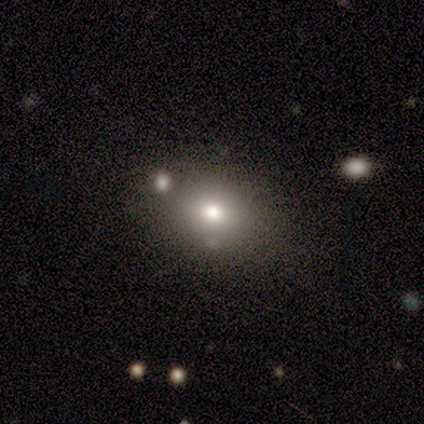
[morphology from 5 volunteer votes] Smooth or featured? smooth (60%)
How rounded? in between (100%)
Merging? none (33%, tied with minor disturbance and merger)